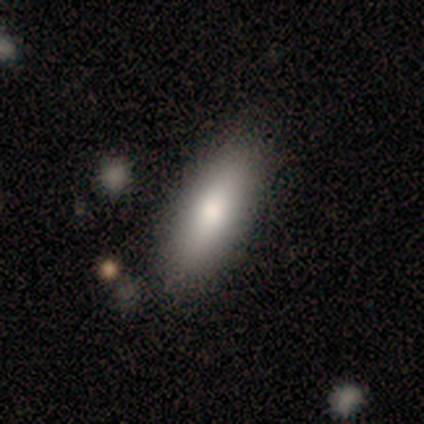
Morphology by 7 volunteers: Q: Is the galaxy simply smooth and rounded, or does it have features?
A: smooth — 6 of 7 (86%).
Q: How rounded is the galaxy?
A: in between — 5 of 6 (83%).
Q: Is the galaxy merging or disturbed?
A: none — 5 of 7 (71%).